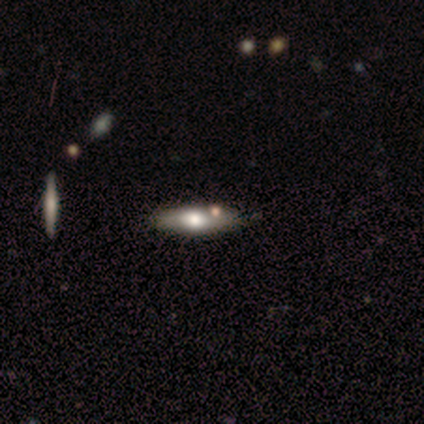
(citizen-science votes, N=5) A smooth galaxy with no disk features (40%, tied with featured or disk) that is round (50%, tied with cigar-shaped). Merging: none (75%).